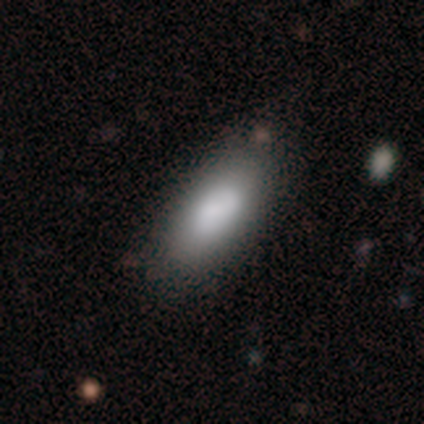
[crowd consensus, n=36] Volunteers were most divided on "merging": none: 74%, minor disturbance: 24%, major disturbance: 3%, merger: 0%. More confident: how rounded — in between (83%); smooth or featured — smooth (83%).